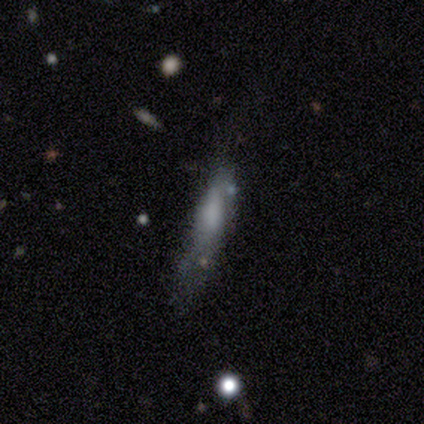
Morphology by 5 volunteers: Q: Smooth or featured?
A: featured or disk (60%); runner-up: smooth (40%)
Q: Edge-on disk?
A: no (67%); runner-up: yes (33%)
Q: Bar?
A: weak (50%); tied with: no (50%)
Q: Spiral arms?
A: yes (50%); tied with: no (50%)
Q: Spiral winding?
A: loose (100%)
Q: Spiral arm count?
A: can't tell (100%)
Q: Bulge size?
A: large (50%); tied with: none (50%)
Q: Merging?
A: minor disturbance (40%); tied with: major disturbance (40%)